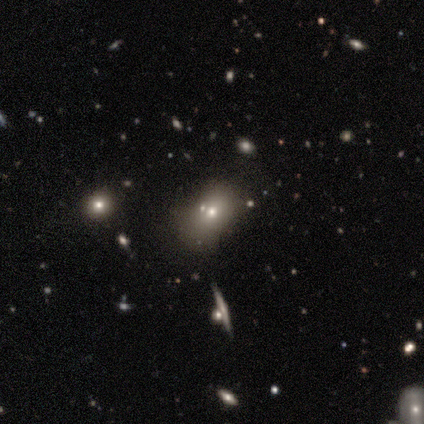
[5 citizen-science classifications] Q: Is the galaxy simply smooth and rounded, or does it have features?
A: smooth — 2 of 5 (40%, tied with star or artifact).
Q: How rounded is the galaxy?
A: round — 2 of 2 (100%).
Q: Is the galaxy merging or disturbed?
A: none — 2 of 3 (67%).